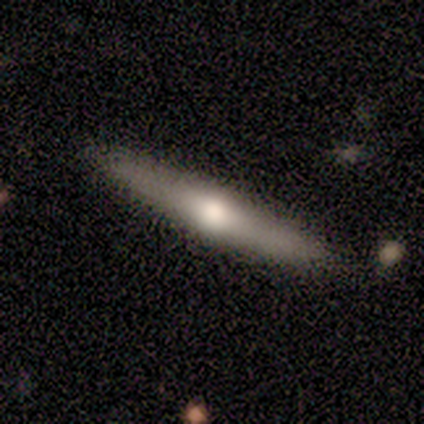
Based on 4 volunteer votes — Overall: smooth (75%). How rounded: cigar-shaped (100%). Merging: none (100%).